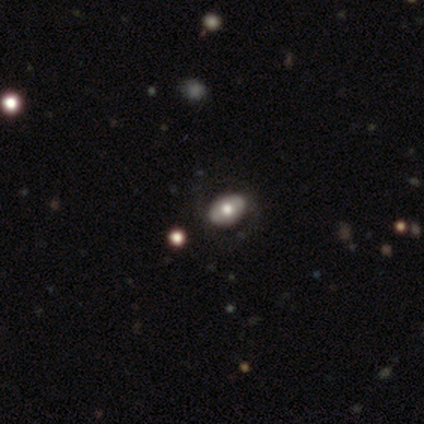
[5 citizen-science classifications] Volunteers were most divided on "bulge size": small: 67%, moderate: 33%, dominant: 0%, large: 0%, none: 0%. More confident: edge-on disk — no (100%); bar — no (100%); spiral arms — no (100%); merging — none (75%); smooth or featured — featured or disk (60%).